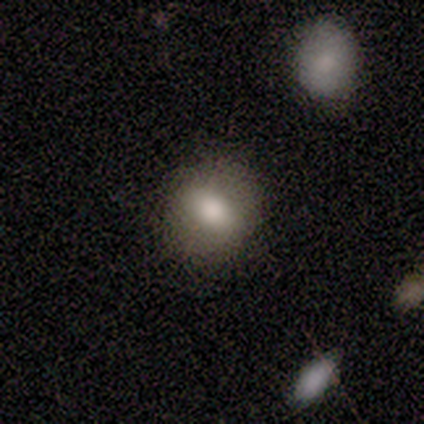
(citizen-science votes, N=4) Smooth or featured? 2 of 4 (50%) said smooth. How rounded? 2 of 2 (100%) said round. Merging? 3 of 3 (100%) said none.